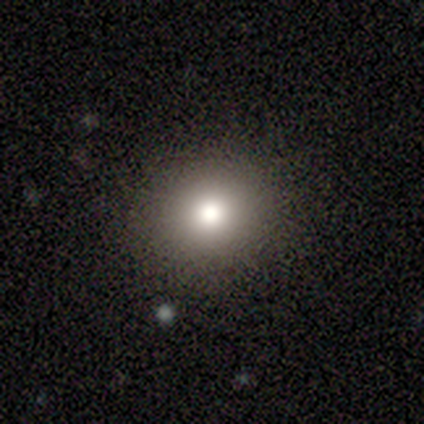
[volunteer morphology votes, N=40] Volunteers were most divided on "smooth or featured": smooth: 65%, featured or disk: 20%, star or artifact: 15%. More confident: how rounded — round (92%); merging — none (85%).